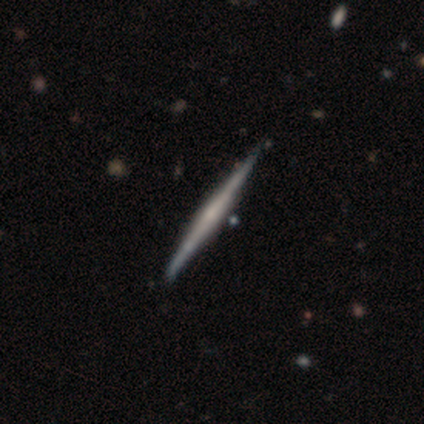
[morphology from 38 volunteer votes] smooth-or-featured: featured or disk: 76% | smooth: 24% | star or artifact: 0%
  disk-edge-on: yes: 100% | no: 0%
    edge-on-bulge: rounded: 55% | none: 38% | boxy: 7%
  merging: none: 68% | minor disturbance: 8% | merger: 8% | major disturbance: 0%